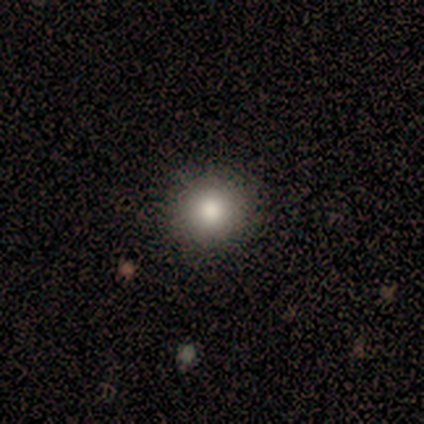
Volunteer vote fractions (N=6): Smooth or featured? 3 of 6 (50%) said smooth. How rounded? 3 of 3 (100%) said round. Merging? 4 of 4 (100%) said none.